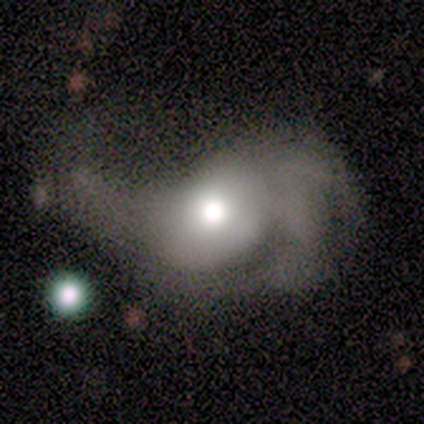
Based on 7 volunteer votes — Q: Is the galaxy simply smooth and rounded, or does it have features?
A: featured or disk — 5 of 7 (71%).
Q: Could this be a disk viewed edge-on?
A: no — 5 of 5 (100%).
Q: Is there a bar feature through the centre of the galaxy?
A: no — 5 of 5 (100%).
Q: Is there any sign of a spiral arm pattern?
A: yes — 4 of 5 (80%).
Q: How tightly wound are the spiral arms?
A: medium — 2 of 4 (50%).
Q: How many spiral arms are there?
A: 2 — 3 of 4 (75%).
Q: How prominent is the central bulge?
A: moderate — 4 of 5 (80%).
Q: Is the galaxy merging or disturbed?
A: major disturbance — 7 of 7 (100%).